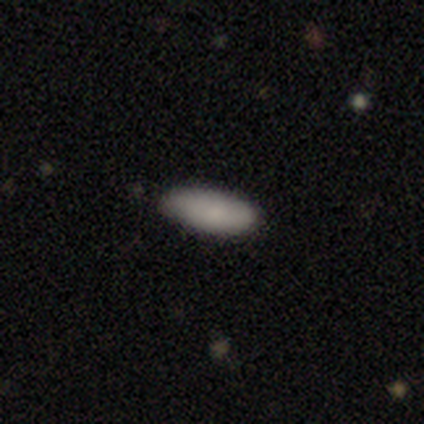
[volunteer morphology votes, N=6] smooth 83%, featured or disk 17%, star or artifact 0%. Down the decision tree: how rounded — in between (60%); merging — none (50%, tied with minor disturbance).